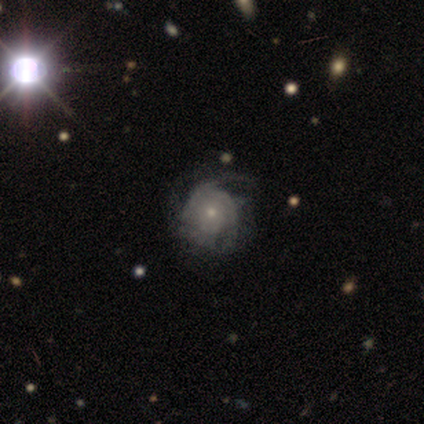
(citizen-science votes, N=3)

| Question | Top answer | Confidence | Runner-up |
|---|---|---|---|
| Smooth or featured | featured or disk | 100% | — |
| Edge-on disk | no | 100% | — |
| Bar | no | 67% | weak (33%) |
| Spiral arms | yes | 100% | — |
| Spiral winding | tight | 67% | medium (33%) |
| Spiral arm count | can't tell | 100% | — |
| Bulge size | moderate | 67% | small (33%) |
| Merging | minor disturbance | 33% | tied: major disturbance (33%), merger (33%) |